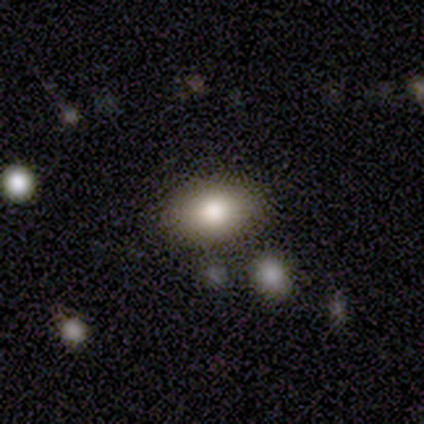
Smooth or featured?
  - smooth: 79% *
  - featured or disk: 13%
  - star or artifact: 8%
How rounded?
  - in between: 84% *
  - round: 16%
  - cigar-shaped: 0%
Merging?
  - none: 81% *
  - minor disturbance: 11%
  - merger: 6%
  - major disturbance: 3%